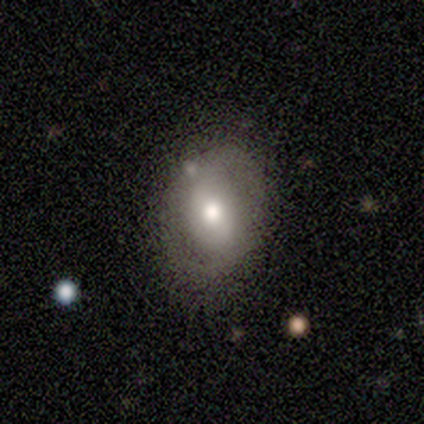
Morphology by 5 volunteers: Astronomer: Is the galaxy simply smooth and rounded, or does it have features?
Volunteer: smooth — 60% (runner-up: featured or disk, 40%).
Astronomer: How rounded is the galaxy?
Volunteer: in between — 67%.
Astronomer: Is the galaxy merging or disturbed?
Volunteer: none — 80%.